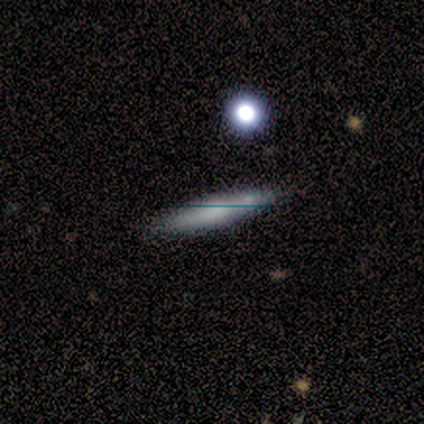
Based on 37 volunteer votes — This appears to be a smooth galaxy with no disk features (43%, tied with featured or disk) that is cigar-shaped (100%). Merging: none (78%).